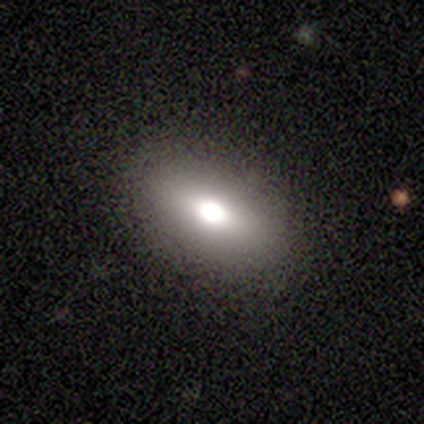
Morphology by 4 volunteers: Smooth or featured? 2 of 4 (50%) said featured or disk. Edge-on disk? 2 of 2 (100%) said no. Bar? 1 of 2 (50%, tied with no) said weak. Spiral arms? 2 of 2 (100%) said no. Bulge size? 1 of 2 (50%, tied with moderate) said large. Merging? 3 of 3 (100%) said none.